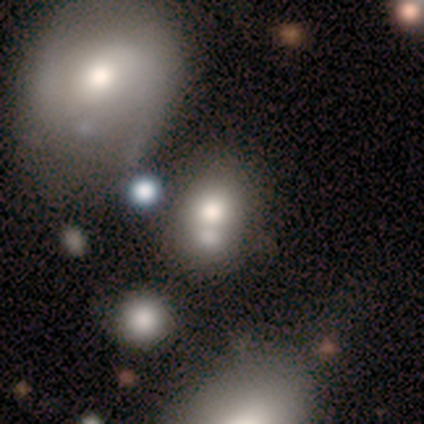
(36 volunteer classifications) Overall: smooth (64%). How rounded: in between (57%; round 43%). Merging: merger (61%; none 23%).